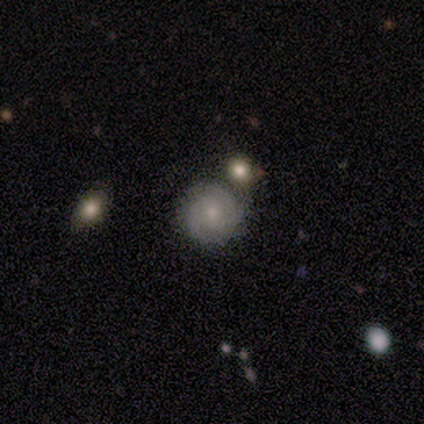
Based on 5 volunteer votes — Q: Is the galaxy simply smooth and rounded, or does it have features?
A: smooth — 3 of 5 (60%).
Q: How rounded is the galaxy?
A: round — 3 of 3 (100%).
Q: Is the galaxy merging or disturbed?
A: none — 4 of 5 (80%).